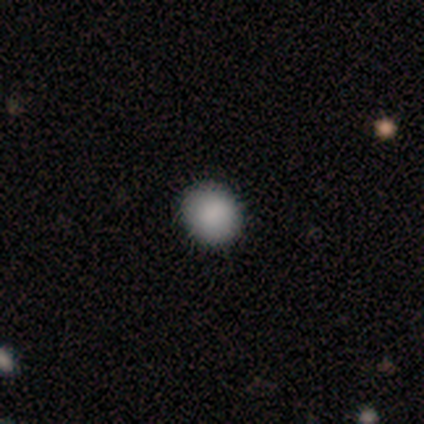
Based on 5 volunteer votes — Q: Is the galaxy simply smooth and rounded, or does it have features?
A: smooth — 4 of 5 (80%).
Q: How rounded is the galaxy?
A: round — 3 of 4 (75%).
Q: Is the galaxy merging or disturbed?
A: none — 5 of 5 (100%).